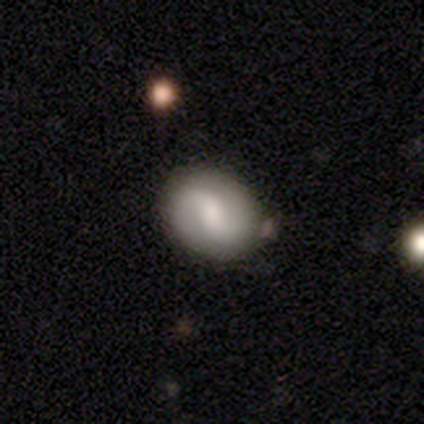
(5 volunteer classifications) Smooth or featured?
  - smooth: 60% *
  - featured or disk: 40%
  - star or artifact: 0%
How rounded?
  - in between: 100% *
  - round: 0%
  - cigar-shaped: 0%
Merging?
  - none: 60% *
  - minor disturbance: 40%
  - major disturbance: 0%
  - merger: 0%